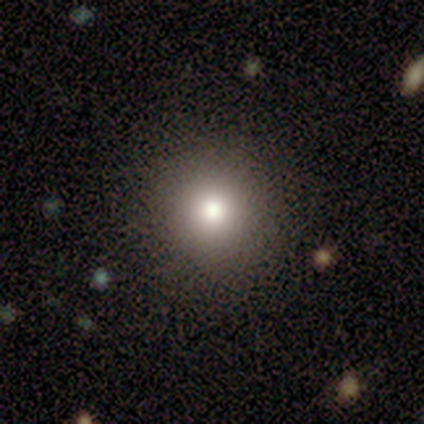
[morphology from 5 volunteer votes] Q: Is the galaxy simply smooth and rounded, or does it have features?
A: smooth — 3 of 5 (60%).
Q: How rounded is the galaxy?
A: round — 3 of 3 (100%).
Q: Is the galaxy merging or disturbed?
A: none — 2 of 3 (67%).